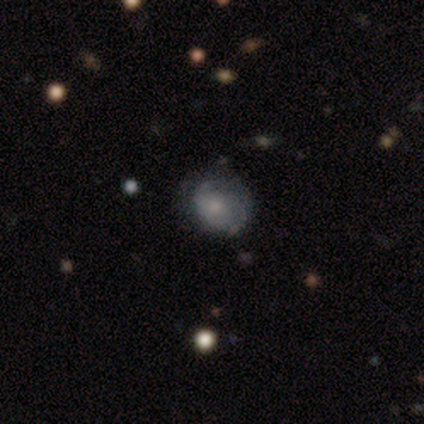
Smooth or featured: smooth — 50% (tied with featured or disk — 50%)
How rounded: round — 50% (tied with in between — 50%)
Merging: none — 75% (minor disturbance — 25%)